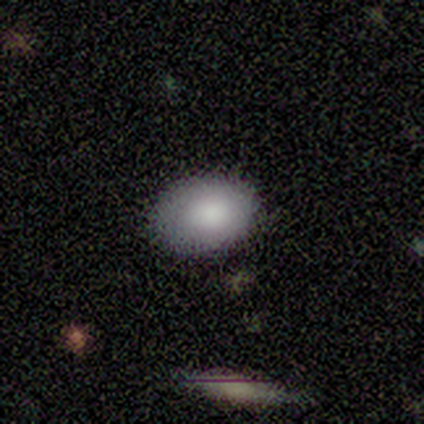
Morphology: type=smooth (80%); roundness=in between (100%); merging=none (80%).